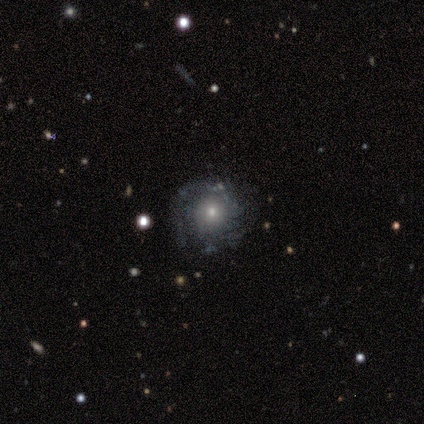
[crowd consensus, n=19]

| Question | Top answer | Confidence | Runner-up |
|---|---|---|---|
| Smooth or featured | featured or disk | 84% | smooth (11%) |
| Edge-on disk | no | 94% | yes (6%) |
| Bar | no | 93% | weak (7%) |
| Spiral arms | yes | 100% | — |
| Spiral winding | tight | 60% | medium (33%) |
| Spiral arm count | can't tell | 40% | 2 (20%) |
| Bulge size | moderate | 67% | small (33%) |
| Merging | none | 83% | minor disturbance (11%) |